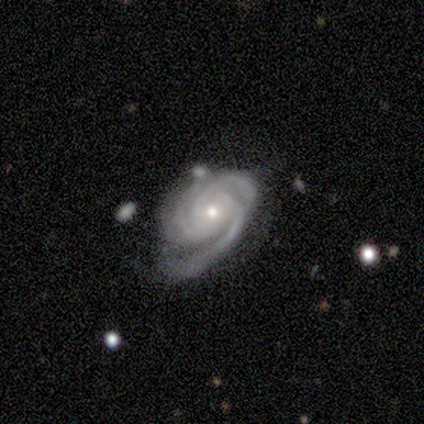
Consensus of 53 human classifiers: featured or disk 94%, smooth 4%, star or artifact 2%. Down the decision tree: edge-on disk — no (100%); bar — no (82%); spiral arms — yes (98%); spiral arm count — 3 (80%); spiral winding — tight (69%); bulge size — moderate (48%, tied with small); merging — none (58%).